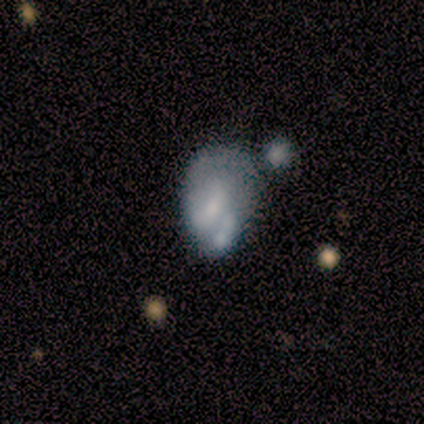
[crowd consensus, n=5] Smooth or featured? 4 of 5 (80%) said featured or disk. Edge-on disk? 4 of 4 (100%) said no. Bar? 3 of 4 (75%) said no. Spiral arms? 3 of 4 (75%) said no. Bulge size? 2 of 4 (50%) said small. Merging? 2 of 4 (50%) said minor disturbance.